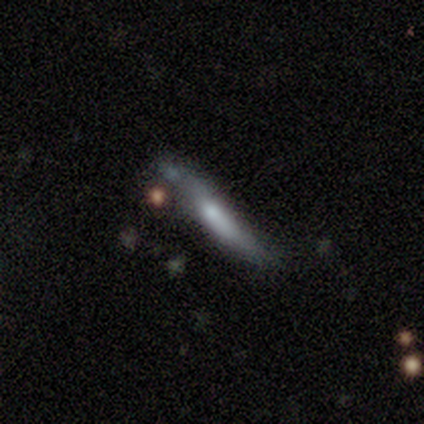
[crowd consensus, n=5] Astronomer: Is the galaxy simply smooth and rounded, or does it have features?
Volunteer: featured or disk — 60% (runner-up: smooth, 40%).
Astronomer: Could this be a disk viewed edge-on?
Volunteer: yes — 67%.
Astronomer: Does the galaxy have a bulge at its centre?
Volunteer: none — 50%, tied with rounded at 50%.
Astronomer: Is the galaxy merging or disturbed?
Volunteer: minor disturbance — 40%, tied with major disturbance at 40%.